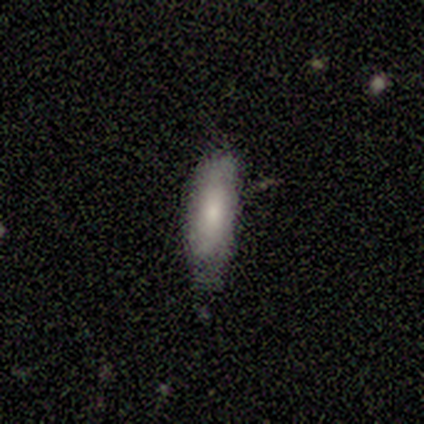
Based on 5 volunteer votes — This is marginally a smooth galaxy (40%, tied with featured or disk). How rounded: possibly in between (50%, tied with cigar-shaped). Merging: likely none (75%).